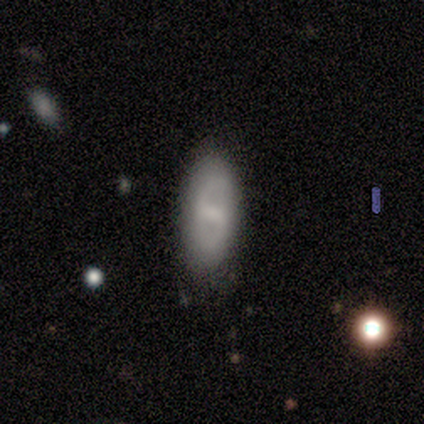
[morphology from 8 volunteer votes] Volunteers were most divided on "bulge size": small: 60%, moderate: 40%, dominant: 0%, large: 0%, none: 0%. More confident: edge-on disk — no (100%); bar — strong (80%); spiral arms — no (80%); merging — none (75%); smooth or featured — featured or disk (62%).